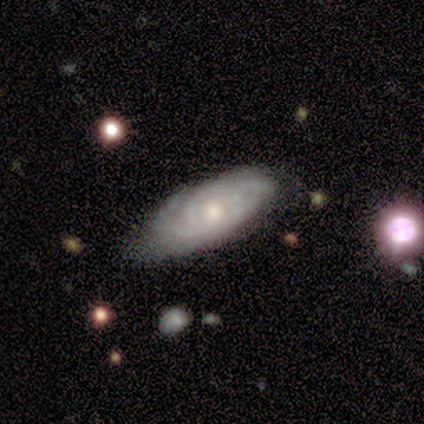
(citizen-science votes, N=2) Smooth or featured?
  - smooth: 50% * (tied)
  - featured or disk: 50% * (tied)
  - star or artifact: 0%
How rounded?
  - cigar-shaped: 100% *
  - round: 0%
  - in between: 0%
Merging?
  - none: 50% * (tied)
  - minor disturbance: 50% * (tied)
  - major disturbance: 0%
  - merger: 0%